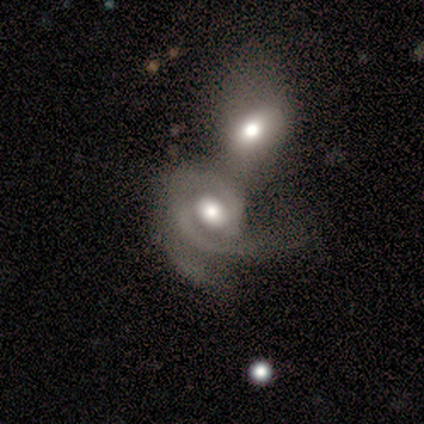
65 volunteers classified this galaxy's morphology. type=featured or disk (83%); edge-on=no (100%); bar=no (76%); spiral arms=yes (78%); winding=tight (45%, tied with medium); arm count=2 (69%); bulge=moderate (59%); merging=merger (75%).